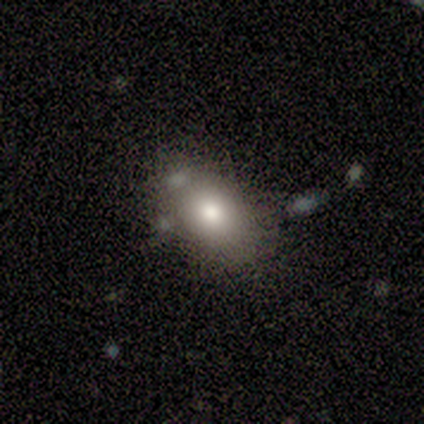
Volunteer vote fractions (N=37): This appears to be a smooth galaxy with no disk features (81%) that is in between round and cigar-shaped (90%). Merging: none (67%).